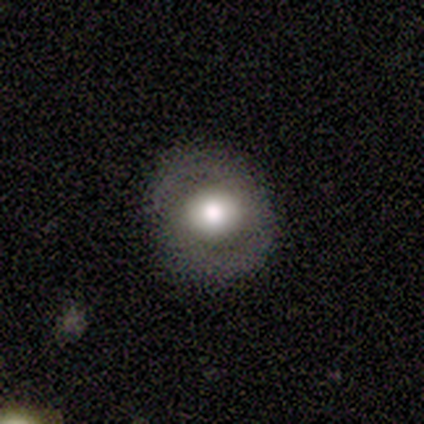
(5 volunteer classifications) smooth_or_featured: smooth (p=0.60) [alt: featured or disk p=0.40]
how_rounded: round (p=1.00)
merging: none (p=1.00)